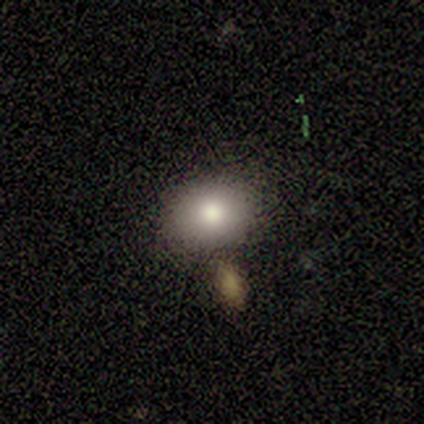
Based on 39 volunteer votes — This appears to be a smooth galaxy with no disk features (74%) that is in between round and cigar-shaped (59%). Merging: none (85%).